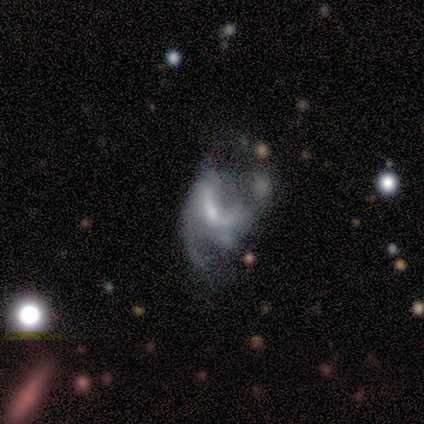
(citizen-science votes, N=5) This appears to be a featured or disk galaxy (60%) with a strong bar (33%, tied with weak and no), 1 (50%, tied with 2) tight (50%, tied with medium) spiral arms (67%) and a moderate central bulge (67%). Merging: major disturbance (50%).